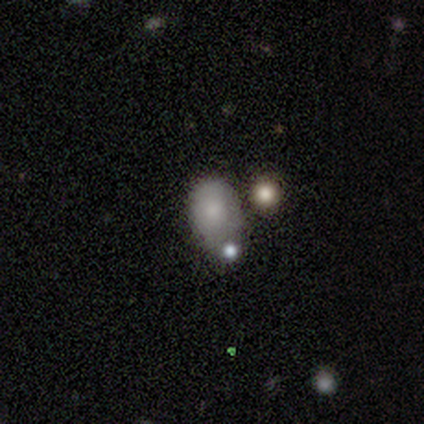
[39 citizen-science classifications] Morphology: type=smooth (74%); roundness=in between (69%); merging=none (30%).